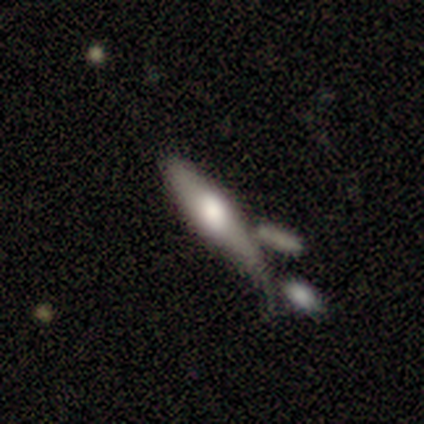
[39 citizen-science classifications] Smooth or featured? smooth (46%)
How rounded? cigar-shaped (72%)
Merging? merger (40%)